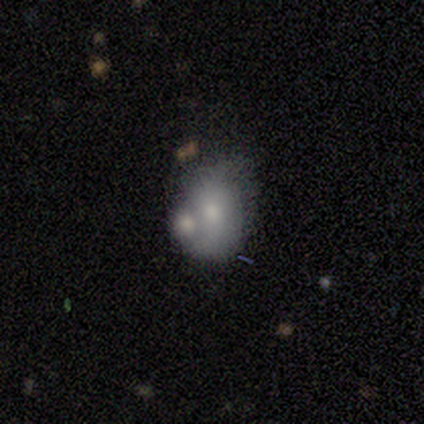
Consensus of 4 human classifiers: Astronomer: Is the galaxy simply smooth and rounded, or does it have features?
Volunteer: smooth — 75%.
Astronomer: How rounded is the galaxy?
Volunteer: round — 67%.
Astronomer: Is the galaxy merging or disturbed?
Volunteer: minor disturbance — 50%, tied with merger at 50%.